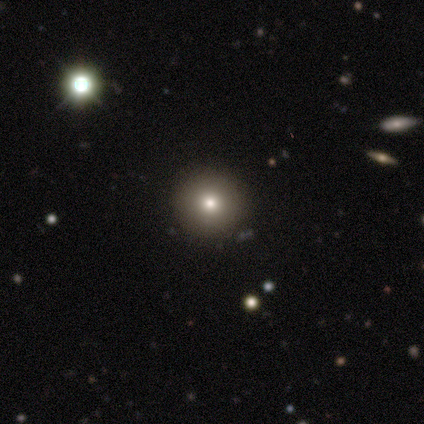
This is clearly a smooth galaxy (83%). How rounded: clearly round (100%). Merging: clearly none (100%).